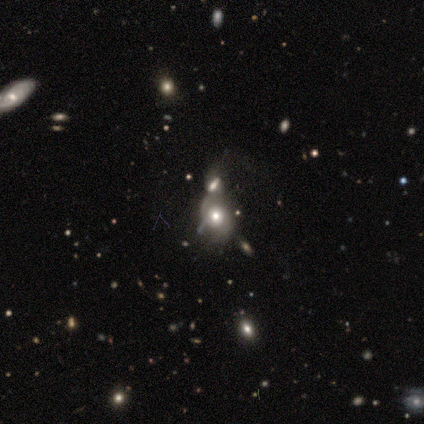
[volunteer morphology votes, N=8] smooth-or-featured: featured or disk: 75% | smooth: 25% | star or artifact: 0%
  disk-edge-on: no: 100% | yes: 0%
    bar: no: 100% | strong: 0% | weak: 0%
    has-spiral-arms: yes: 67% | no: 33%
      spiral-winding: medium: 75% | loose: 25% | tight: 0%
      spiral-arm-count: 2: 100% | 1: 0% | 3: 0% | 4: 0% | more than 4: 0% | can't tell: 0%
    bulge-size: moderate: 83% | large: 17% | dominant: 0% | small: 0% | none: 0%
  merging: merger: 88% | none: 12% | minor disturbance: 0% | major disturbance: 0%